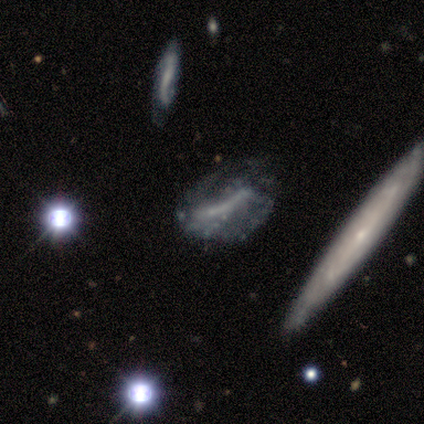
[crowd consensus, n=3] Smooth or featured? featured or disk (67%)
Edge-on disk? no (100%)
Bar? strong (100%)
Spiral arms? no (100%)
Bulge size? none (100%)
Merging? none (67%)